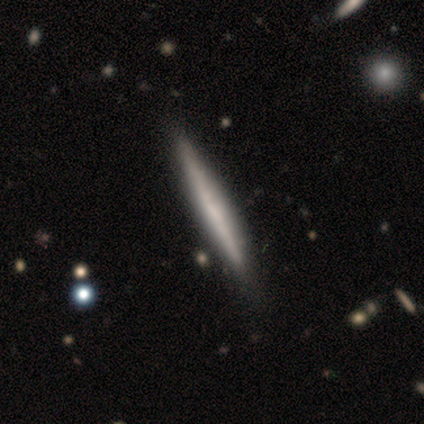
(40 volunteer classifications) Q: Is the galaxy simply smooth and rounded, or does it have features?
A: featured or disk — 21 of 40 (52%).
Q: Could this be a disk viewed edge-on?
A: yes — 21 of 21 (100%).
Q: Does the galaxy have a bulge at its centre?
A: none — 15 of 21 (71%).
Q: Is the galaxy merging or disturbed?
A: none — 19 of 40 (48%).